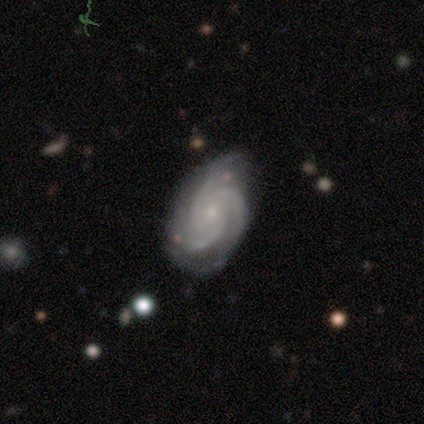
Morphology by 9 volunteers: Smooth or featured? 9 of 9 (100%) said featured or disk. Edge-on disk? 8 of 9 (89%) said no. Bar? 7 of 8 (88%) said no. Spiral arms? 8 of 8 (100%) said yes. Spiral winding? 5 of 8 (62%) said tight. Spiral arm count? 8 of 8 (100%) said 3. Bulge size? 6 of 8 (75%) said small. Merging? 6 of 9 (67%) said none.